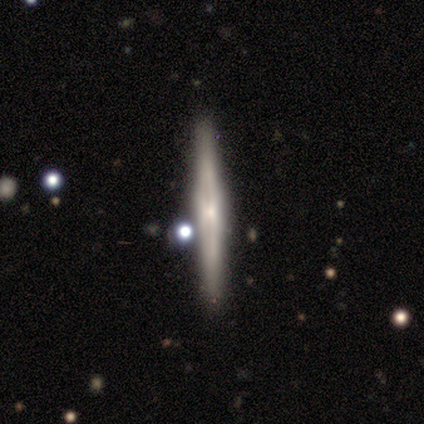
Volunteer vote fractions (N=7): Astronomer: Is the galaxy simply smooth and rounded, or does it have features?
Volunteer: featured or disk — 71%.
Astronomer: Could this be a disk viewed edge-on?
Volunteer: yes — 100%.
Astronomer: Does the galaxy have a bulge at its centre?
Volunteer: none — 60%.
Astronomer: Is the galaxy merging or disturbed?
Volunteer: none — 86%.